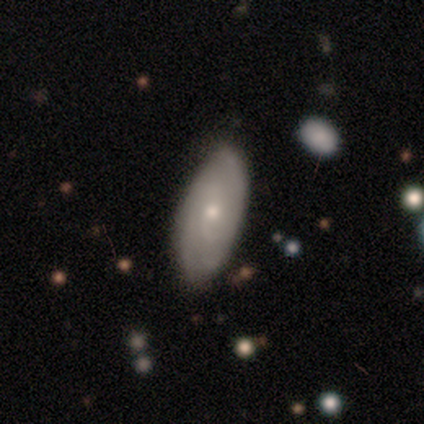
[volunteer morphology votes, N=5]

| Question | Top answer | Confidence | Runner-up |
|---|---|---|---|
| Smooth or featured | featured or disk | 60% | smooth (40%) |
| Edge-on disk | no | 100% | — |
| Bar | no | 100% | — |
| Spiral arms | yes | 100% | — |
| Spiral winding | tight | 67% | medium (33%) |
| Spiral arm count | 2 | 100% | — |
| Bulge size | small | 67% | moderate (33%) |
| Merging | none | 60% | minor disturbance (20%) |